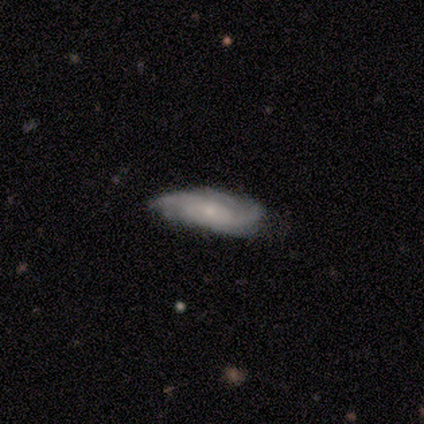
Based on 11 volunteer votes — Smooth or featured?
  - featured or disk: 55% *
  - smooth: 45%
  - star or artifact: 0%
Edge-on disk?
  - no: 100% *
  - yes: 0%
Bar?
  - no: 83% *
  - strong: 17%
  - weak: 0%
Spiral arms?
  - yes: 100% *
  - no: 0%
Spiral winding?
  - medium: 50% *
  - tight: 33%
  - loose: 17%
Spiral arm count?
  - 2: 50% *
  - can't tell: 33%
  - more than 4: 17%
  - 1: 0%
  - 3: 0%
  - 4: 0%
Bulge size?
  - small: 67% *
  - large: 17%
  - moderate: 17%
  - dominant: 0%
  - none: 0%
Merging?
  - none: 82% *
  - minor disturbance: 9%
  - merger: 9%
  - major disturbance: 0%